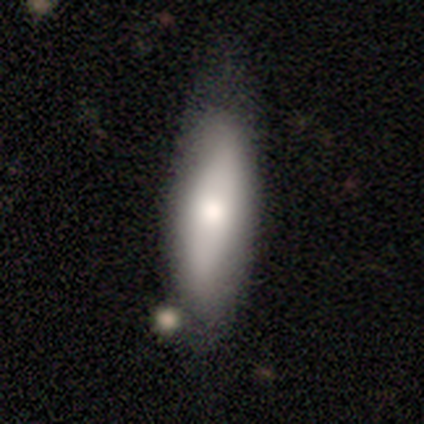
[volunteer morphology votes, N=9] type=smooth (78%); roundness=in between (71%); merging=none (44%, tied with minor disturbance).